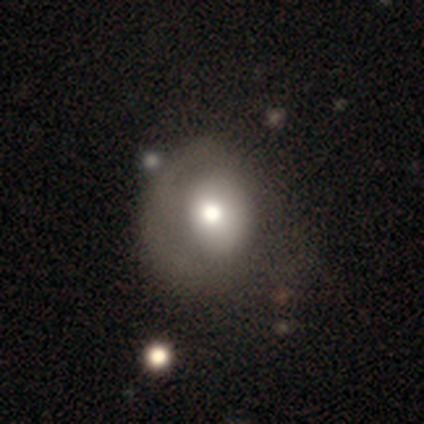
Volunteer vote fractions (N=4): Morphology: type=smooth (75%); roundness=round (67%); merging=none (67%).